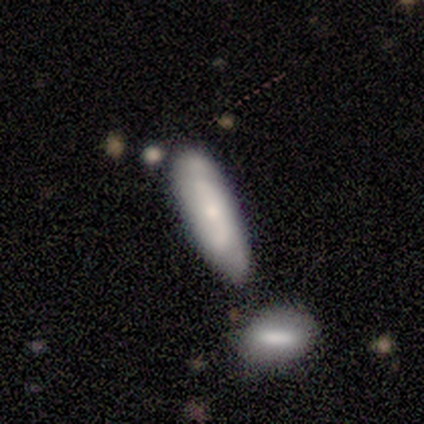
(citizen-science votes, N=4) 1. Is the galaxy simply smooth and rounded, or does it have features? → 100% smooth, 0% featured or disk, 0% star or artifact.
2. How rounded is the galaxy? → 75% in between, 25% cigar-shaped, 0% round.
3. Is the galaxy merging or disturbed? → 75% none, 25% minor disturbance, 0% major disturbance, 0% merger.